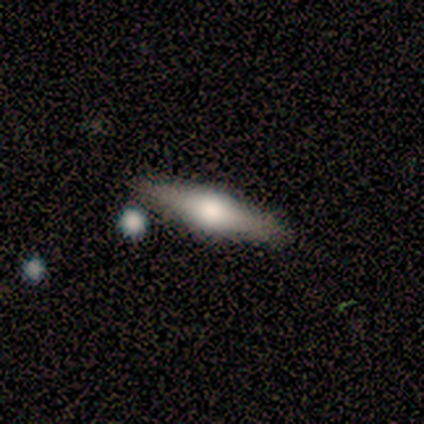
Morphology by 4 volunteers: This appears to be a featured or disk galaxy (75%) viewed edge-on (100%) with a rounded central bulge (100%). Merging: none (100%).